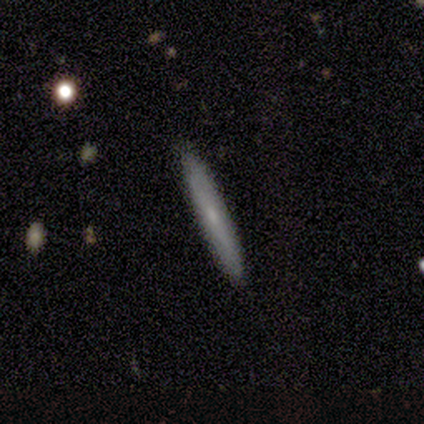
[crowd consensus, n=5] This is likely a featured or disk galaxy (60%). It is clearly viewed edge-on (100%). Edge-on bulge: likely none (67%). Merging: clearly none (100%).